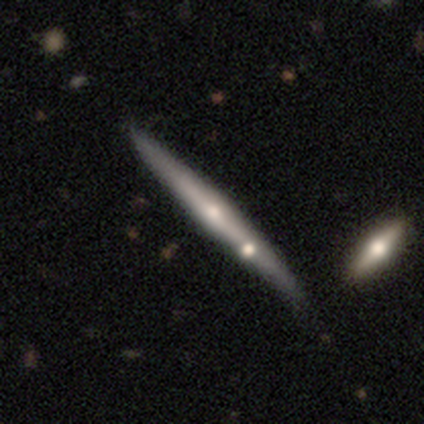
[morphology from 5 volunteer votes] This is likely a featured or disk galaxy (60%). It is clearly viewed edge-on (100%). Edge-on bulge: clearly rounded (100%). Merging: likely none (60%).